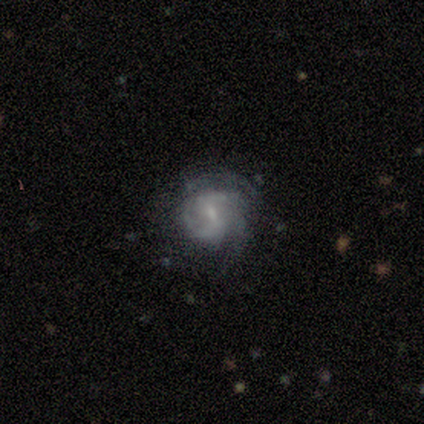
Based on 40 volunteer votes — smooth-or-featured: featured or disk: 88% | smooth: 8% | star or artifact: 5%
  disk-edge-on: no: 100% | yes: 0%
    bar: weak: 71% | no: 20% | strong: 9%
    has-spiral-arms: yes: 97% | no: 3%
      spiral-winding: medium: 50% | tight: 32% | loose: 18%
      spiral-arm-count: 2: 53% | 3: 29% | can't tell: 15% | 1: 3% | 4: 0% | more than 4: 0%
    bulge-size: small: 71% | moderate: 20% | none: 6% | large: 3% | dominant: 0%
  merging: none: 61% | minor disturbance: 21% | major disturbance: 18% | merger: 0%